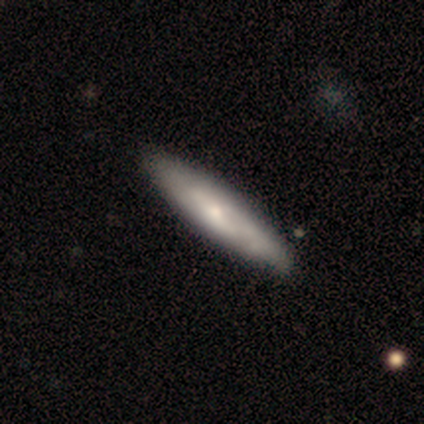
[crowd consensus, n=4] Smooth or featured: featured or disk — 100%
Edge-on disk: yes — 50% (tied with no — 50%)
Edge-on bulge: rounded — 100%
Merging: none — 75% (minor disturbance — 25%)